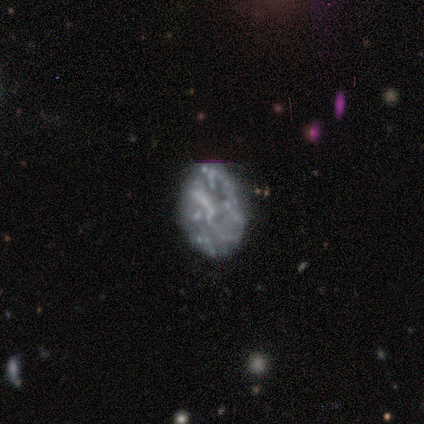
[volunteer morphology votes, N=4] smooth-or-featured: featured or disk: 75% | star or artifact: 25% | smooth: 0%
  disk-edge-on: no: 100% | yes: 0%
    bar: no: 100% | strong: 0% | weak: 0%
    has-spiral-arms: no: 67% | yes: 33%
    bulge-size: none: 100% | dominant: 0% | large: 0% | moderate: 0% | small: 0%
  merging: none: 33% (tied) | minor disturbance: 33% (tied) | major disturbance: 33% (tied) | merger: 0%